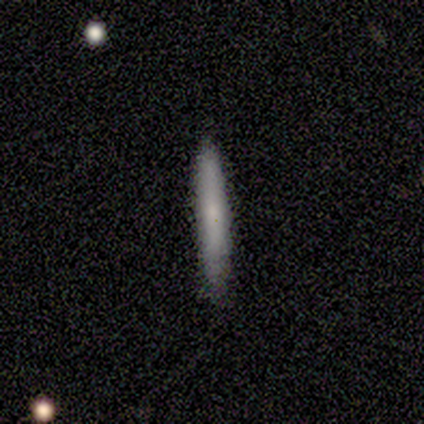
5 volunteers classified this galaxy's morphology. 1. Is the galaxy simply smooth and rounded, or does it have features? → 100% smooth, 0% featured or disk, 0% star or artifact.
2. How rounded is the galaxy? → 60% cigar-shaped, 20% round, 20% in between.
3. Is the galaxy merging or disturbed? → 100% none, 0% minor disturbance, 0% major disturbance, 0% merger.